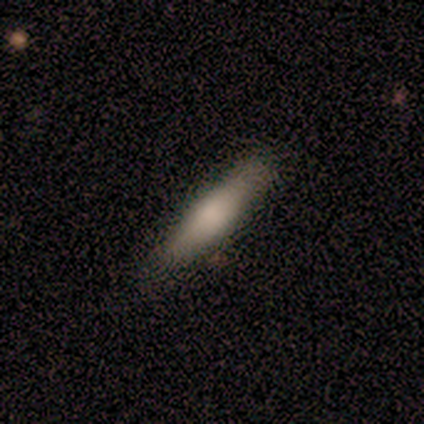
A smooth galaxy with no disk features (69%) that is cigar-shaped (100%).

Vote fractions:
- Smooth or featured? smooth: 69% / featured or disk: 31% / star or artifact: 0%
- How rounded? cigar-shaped: 100% / round: 0% / in between: 0%
- Merging? none: 100% / minor disturbance: 0% / major disturbance: 0% / merger: 0%